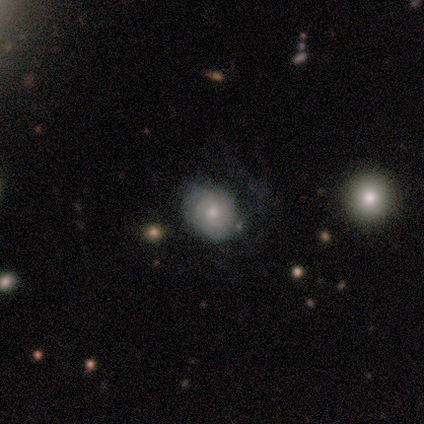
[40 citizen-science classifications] Smooth or featured?
  - featured or disk: 60% *
  - smooth: 32%
  - star or artifact: 8%
Edge-on disk?
  - no: 100% *
  - yes: 0%
Bar?
  - no: 71% *
  - weak: 29%
  - strong: 0%
Spiral arms?
  - yes: 71% *
  - no: 29%
Spiral winding?
  - tight: 65% *
  - medium: 29%
  - loose: 6%
Spiral arm count?
  - can't tell: 59% *
  - 2: 24%
  - 3: 18%
  - 1: 0%
  - 4: 0%
  - more than 4: 0%
Bulge size?
  - moderate: 58% *
  - small: 25%
  - large: 8%
  - dominant: 4%
  - none: 4%
Merging?
  - none: 54% *
  - major disturbance: 22%
  - minor disturbance: 19%
  - merger: 5%